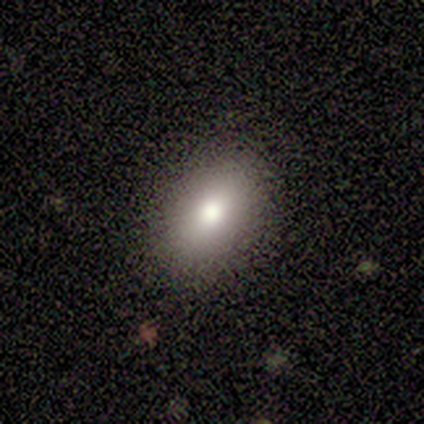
Morphology: type=smooth (100%); roundness=in between (80%); merging=none (100%).